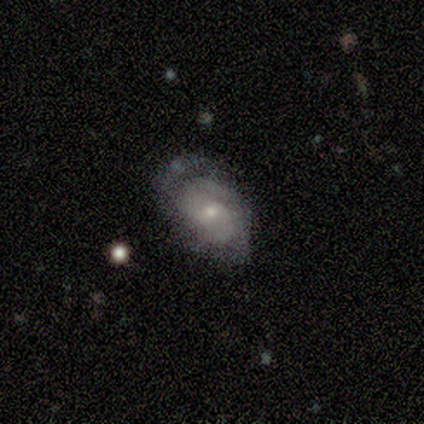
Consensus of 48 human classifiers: featured or disk 65%, smooth 33%, star or artifact 2%. Down the decision tree: edge-on disk — no (100%); bar — no (52%); spiral arms — yes (90%); spiral arm count — 2 (39%); spiral winding — tight (54%); bulge size — small (55%); merging — none (43%).